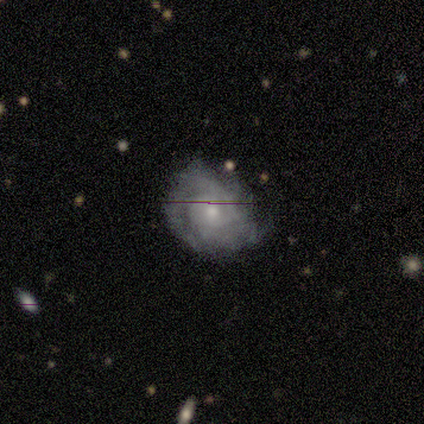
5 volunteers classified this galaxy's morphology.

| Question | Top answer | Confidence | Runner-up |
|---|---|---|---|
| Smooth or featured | featured or disk | 100% | — |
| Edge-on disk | no | 100% | — |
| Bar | no | 60% | weak (40%) |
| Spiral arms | yes | 100% | — |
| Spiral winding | tight | 80% | medium (20%) |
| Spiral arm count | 1 | 40% | 2 (20%) |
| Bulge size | moderate | 80% | large (20%) |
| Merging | none | 40% | tied: major disturbance (40%) |